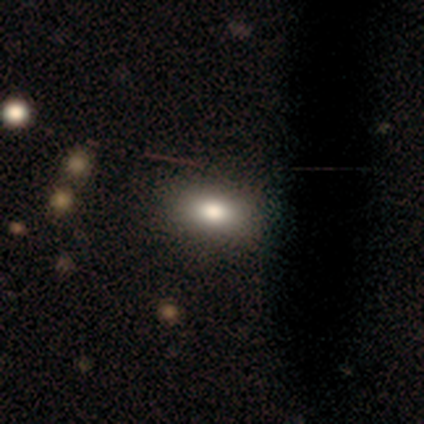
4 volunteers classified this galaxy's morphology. This appears to be a smooth galaxy with no disk features (50%, tied with star or artifact) that is in between round and cigar-shaped (100%). Merging: none (100%).